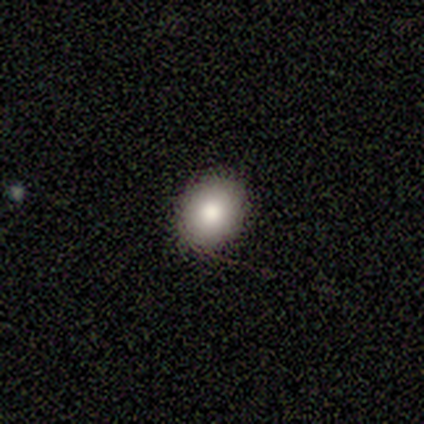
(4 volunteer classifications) A smooth galaxy with no disk features (75%) that is round (100%).

Vote fractions:
- Smooth or featured? smooth: 75% / featured or disk: 25% / star or artifact: 0%
- How rounded? round: 100% / in between: 0% / cigar-shaped: 0%
- Merging? none: 75% / minor disturbance: 25% / major disturbance: 0% / merger: 0%